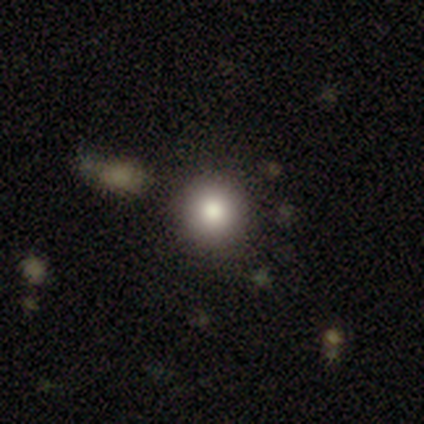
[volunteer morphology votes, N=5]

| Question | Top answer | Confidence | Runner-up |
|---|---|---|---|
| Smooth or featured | smooth | 80% | star or artifact (20%) |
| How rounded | round | 100% | — |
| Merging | none | 75% | merger (25%) |